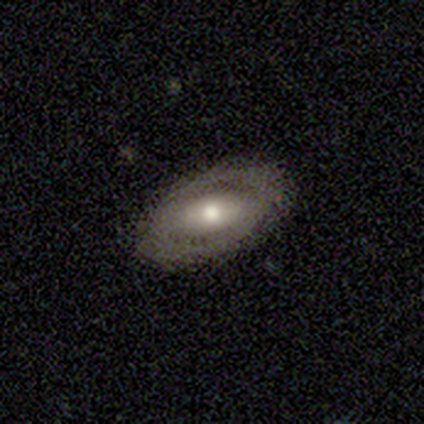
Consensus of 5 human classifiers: Morphology: type=smooth (60%); roundness=in between (100%); merging=none (75%).